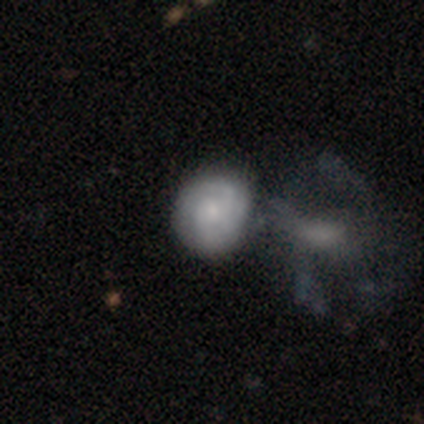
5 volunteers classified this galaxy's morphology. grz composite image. It shows a featured or disk galaxy (60%) with no bar (100%), 2 (67%) tight (100%) spiral arms (100%) and a small central bulge (67%). Merging: none (50%, tied with merger).